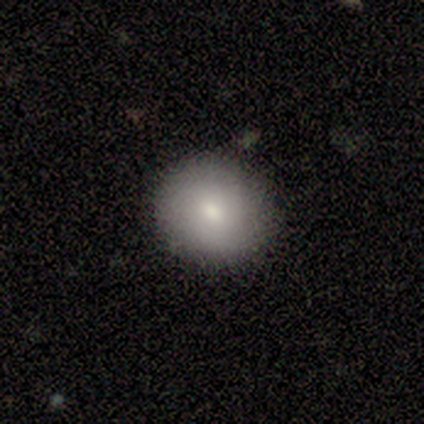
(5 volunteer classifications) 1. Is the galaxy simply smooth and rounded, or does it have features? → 60% smooth, 20% featured or disk, 20% star or artifact.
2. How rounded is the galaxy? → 67% round, 33% in between, 0% cigar-shaped.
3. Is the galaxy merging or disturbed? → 100% none, 0% minor disturbance, 0% major disturbance, 0% merger.